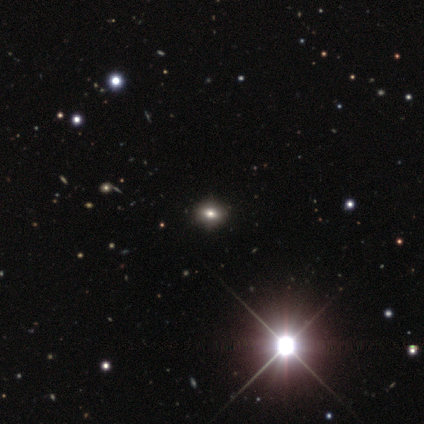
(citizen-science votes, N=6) Smooth or featured?
  - smooth: 67% *
  - featured or disk: 17%
  - star or artifact: 17%
How rounded?
  - round: 50% * (tied)
  - in between: 50% * (tied)
  - cigar-shaped: 0%
Merging?
  - none: 60% *
  - minor disturbance: 40%
  - major disturbance: 0%
  - merger: 0%